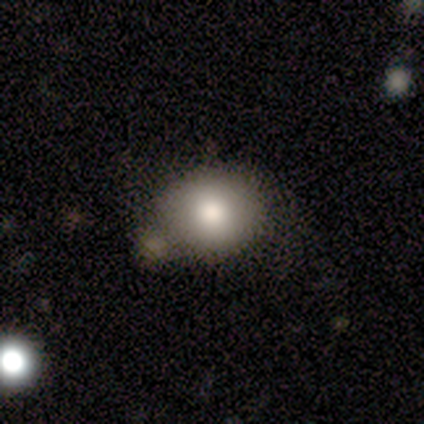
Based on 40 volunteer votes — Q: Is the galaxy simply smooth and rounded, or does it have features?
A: smooth — 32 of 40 (80%).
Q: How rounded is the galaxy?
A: round — 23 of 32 (72%).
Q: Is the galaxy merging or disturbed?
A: none — 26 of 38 (68%).